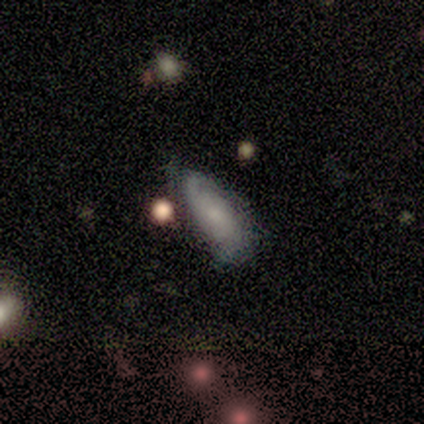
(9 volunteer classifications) Smooth or featured?
  - smooth: 44% * (tied)
  - featured or disk: 44% * (tied)
  - star or artifact: 11%
How rounded?
  - in between: 75% *
  - cigar-shaped: 25%
  - round: 0%
Merging?
  - none: 50% *
  - minor disturbance: 38%
  - merger: 12%
  - major disturbance: 0%